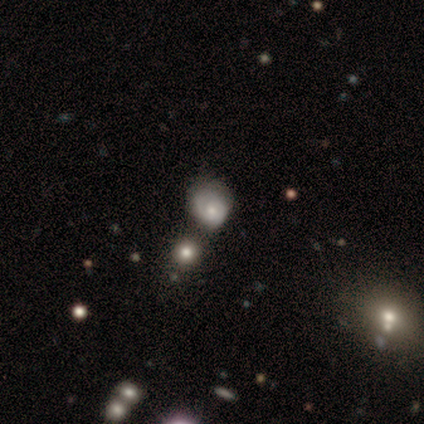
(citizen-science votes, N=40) Smooth or featured? featured or disk (45%)
Edge-on disk? no (100%)
Bar? no (67%)
Spiral arms? yes (72%)
Spiral winding? tight (62%)
Spiral arm count? 2 (46%, tied with can't tell)
Bulge size? moderate (50%)
Merging? none (29%)